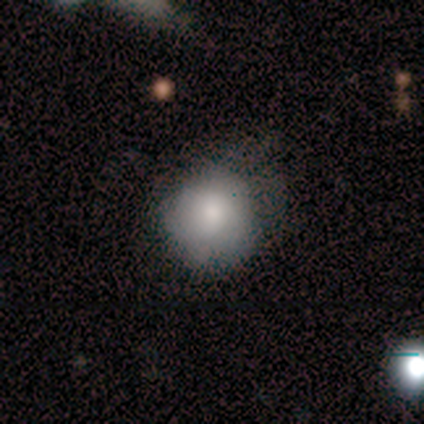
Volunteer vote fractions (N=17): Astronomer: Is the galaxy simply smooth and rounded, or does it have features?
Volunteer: smooth — 88%.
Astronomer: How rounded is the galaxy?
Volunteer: round — 80%.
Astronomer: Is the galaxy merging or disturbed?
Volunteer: none — 53% (runner-up: minor disturbance, 35%).